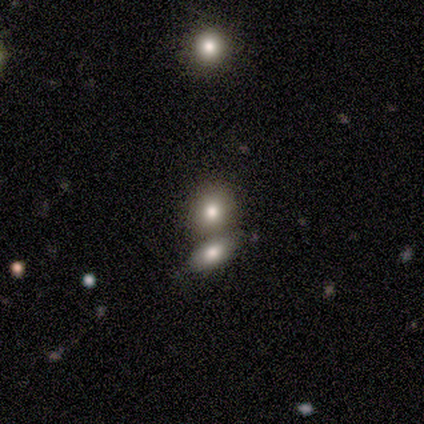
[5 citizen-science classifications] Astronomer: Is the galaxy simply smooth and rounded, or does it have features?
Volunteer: smooth — 80%.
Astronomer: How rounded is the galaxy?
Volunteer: round — 50%, tied with in between at 50%.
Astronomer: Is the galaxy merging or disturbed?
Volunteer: none — 75%.